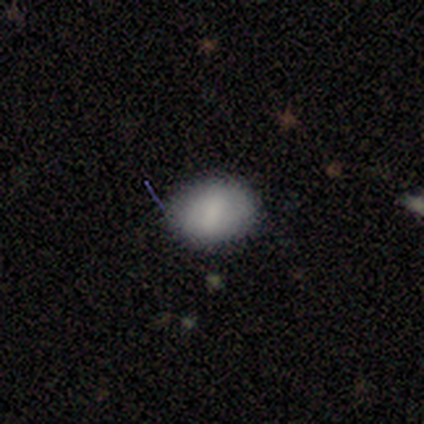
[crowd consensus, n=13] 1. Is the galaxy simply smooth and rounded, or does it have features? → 85% smooth, 15% star or artifact, 0% featured or disk.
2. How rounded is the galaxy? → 55% in between, 45% round, 0% cigar-shaped.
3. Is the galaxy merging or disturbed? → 73% none, 27% minor disturbance, 0% major disturbance, 0% merger.